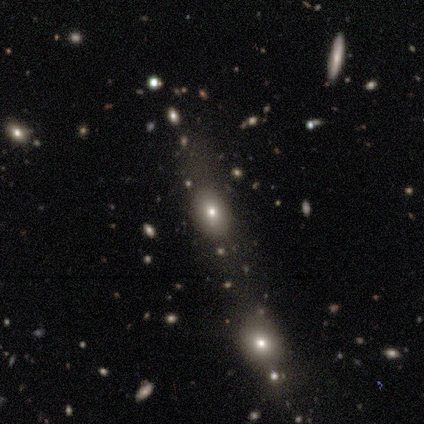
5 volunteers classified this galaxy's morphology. smooth-or-featured: smooth: 80% | star or artifact: 20% | featured or disk: 0%
  how-rounded: in between: 75% | round: 25% | cigar-shaped: 0%
  merging: none: 100% | minor disturbance: 0% | major disturbance: 0% | merger: 0%